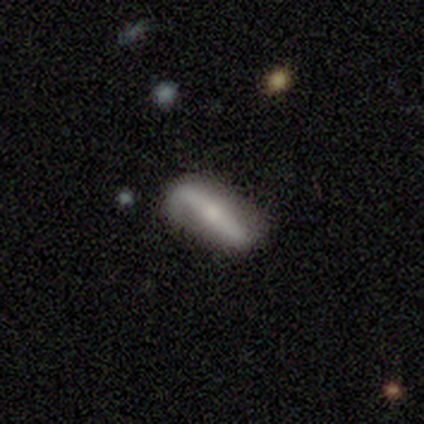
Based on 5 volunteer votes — A smooth galaxy with no disk features (60%) that is in between round and cigar-shaped (100%). Merging: minor disturbance (60%).